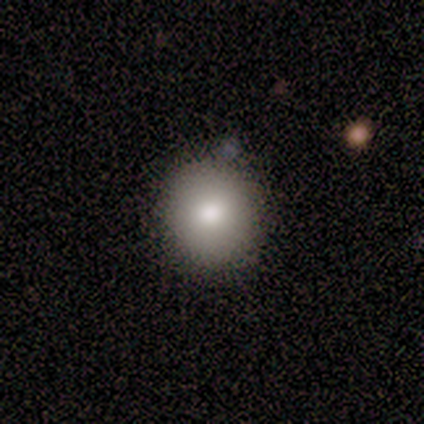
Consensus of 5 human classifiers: Volunteers were most divided on "merging": none: 75%, minor disturbance: 25%, major disturbance: 0%, merger: 0%. More confident: how rounded — round (100%); smooth or featured — smooth (80%).